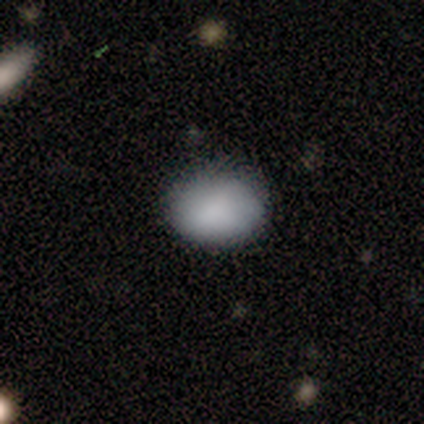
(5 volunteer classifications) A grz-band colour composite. It shows a smooth galaxy with no disk features (100%) that is in between round and cigar-shaped (80%). Merging: none (100%).